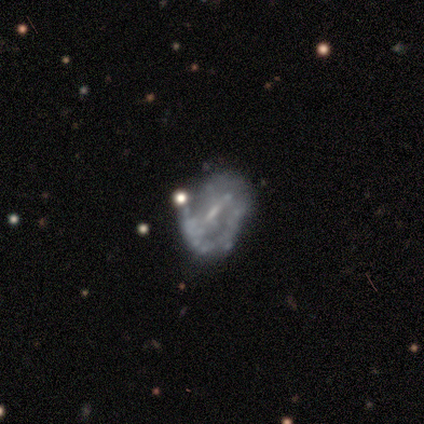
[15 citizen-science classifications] Morphology: type=featured or disk (60%); edge-on=no (100%); bar=weak (56%); spiral arms=no (67%); bulge=small (56%); merging=none (33%, tied with minor disturbance and major disturbance).